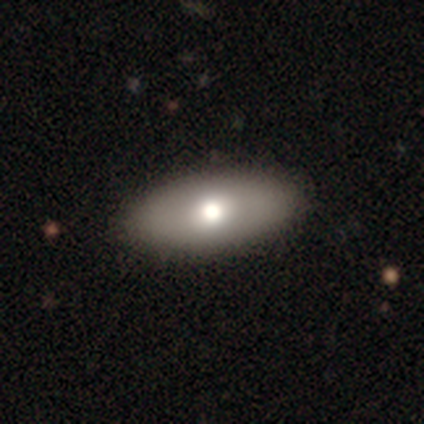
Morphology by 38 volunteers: smooth 79%, featured or disk 11%, star or artifact 11%. Down the decision tree: how rounded — in between (90%); merging — none (91%).